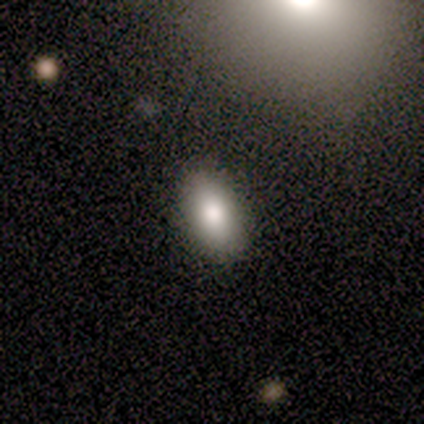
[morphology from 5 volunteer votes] smooth-or-featured: smooth: 100% | featured or disk: 0% | star or artifact: 0%
  how-rounded: in between: 100% | round: 0% | cigar-shaped: 0%
  merging: none: 100% | minor disturbance: 0% | major disturbance: 0% | merger: 0%